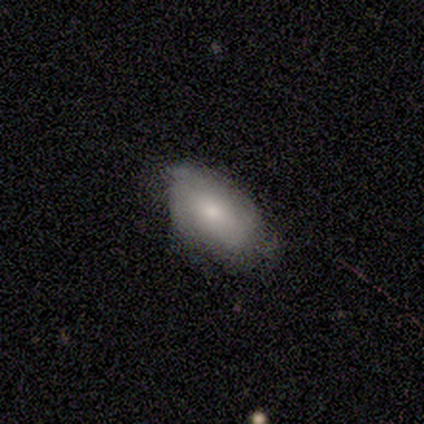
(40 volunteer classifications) Smooth or featured?
  - smooth: 68% *
  - featured or disk: 30%
  - star or artifact: 2%
How rounded?
  - in between: 93% *
  - round: 4%
  - cigar-shaped: 4%
Merging?
  - none: 64% *
  - minor disturbance: 28%
  - major disturbance: 8%
  - merger: 0%